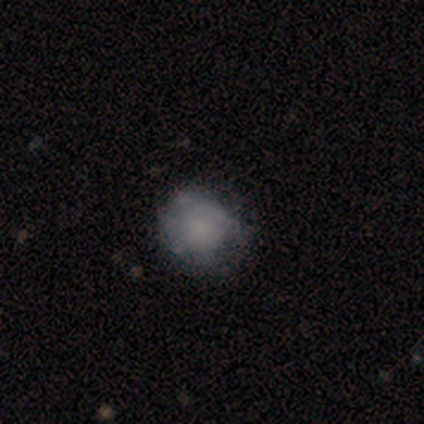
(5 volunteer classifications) smooth 80%, featured or disk 20%, star or artifact 0%. Down the decision tree: how rounded — round (100%); merging — none (60%).